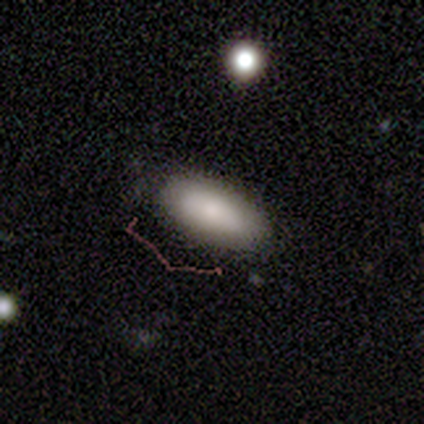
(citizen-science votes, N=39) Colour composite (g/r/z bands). It shows a smooth galaxy with no disk features (87%) that is in between round and cigar-shaped (85%). Merging: none (81%).